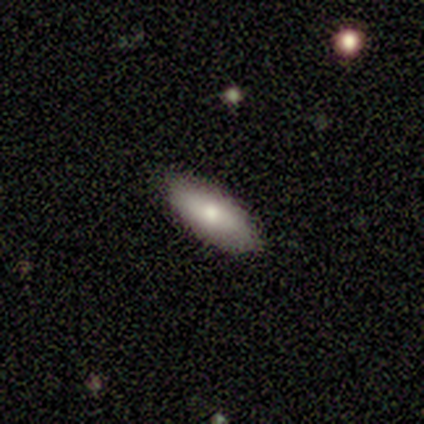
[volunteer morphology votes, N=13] A smooth galaxy with no disk features (92%) that is in between round and cigar-shaped (75%).

Vote fractions:
- Smooth or featured? smooth: 92% / star or artifact: 8% / featured or disk: 0%
- How rounded? in between: 75% / cigar-shaped: 25% / round: 0%
- Merging? none: 92% / merger: 8% / minor disturbance: 0% / major disturbance: 0%